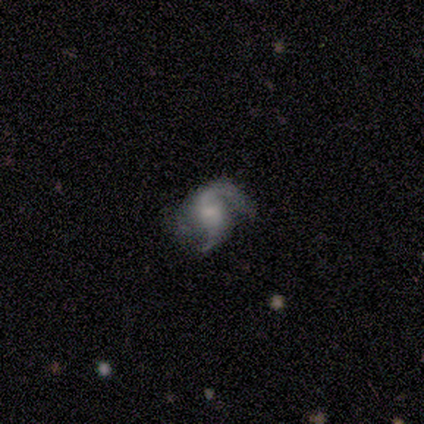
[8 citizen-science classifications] Overall: featured or disk (100%). Edge-on disk: no (100%). Bar: weak (75%). Spiral arms: yes (100%). Spiral arm count: 2 (75%). Spiral winding: medium (62%; loose 25%). Bulge size: small (50%; moderate 25%). Merging: none (62%; minor disturbance 25%).